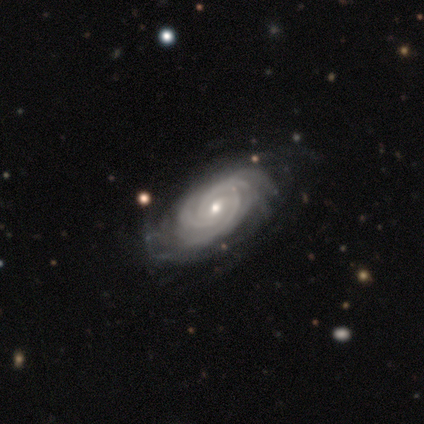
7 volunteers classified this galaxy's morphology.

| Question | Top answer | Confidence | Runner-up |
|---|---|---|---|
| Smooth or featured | featured or disk | 100% | — |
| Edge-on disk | no | 86% | yes (14%) |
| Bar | no | 100% | — |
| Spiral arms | yes | 100% | — |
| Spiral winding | tight | 83% | medium (17%) |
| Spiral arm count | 3 | 33% | 2 (17%) |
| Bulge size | moderate | 50% | tied: small (50%) |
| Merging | none | 57% | minor disturbance (43%) |